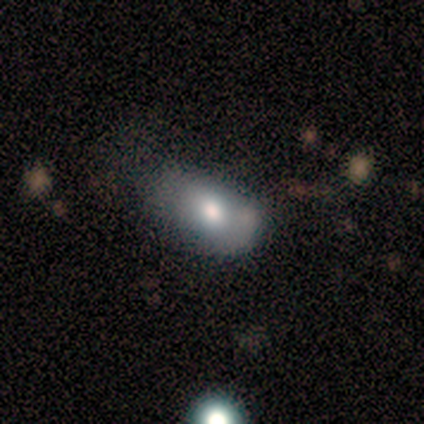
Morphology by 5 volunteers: Q: Smooth or featured?
A: smooth (80%); runner-up: featured or disk (20%)
Q: How rounded?
A: in between (100%)
Q: Merging?
A: none (60%); runner-up: major disturbance (40%)